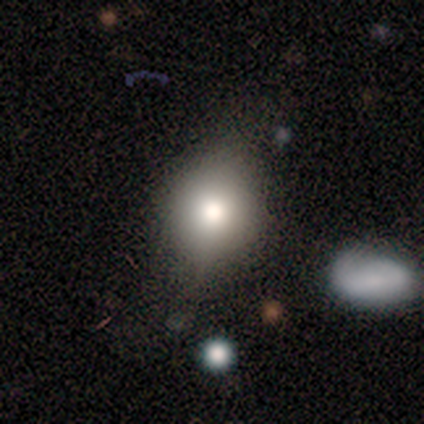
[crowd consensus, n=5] A smooth galaxy with no disk features (80%) that is round (75%).

Vote fractions:
- Smooth or featured? smooth: 80% / featured or disk: 20% / star or artifact: 0%
- How rounded? round: 75% / in between: 25% / cigar-shaped: 0%
- Merging? none: 80% / major disturbance: 20% / minor disturbance: 0% / merger: 0%